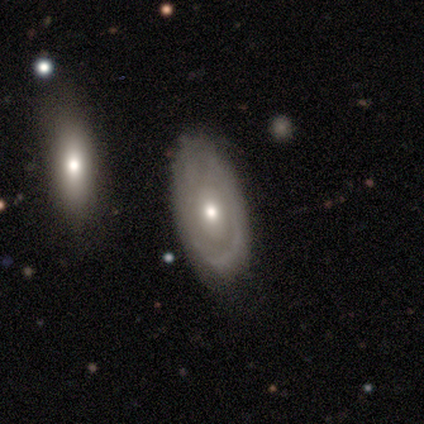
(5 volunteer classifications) featured or disk 100%, smooth 0%, star or artifact 0%. Down the decision tree: edge-on disk — no (100%); bar — no (100%); spiral arms — no (60%); bulge size — small (60%); merging — none (80%).